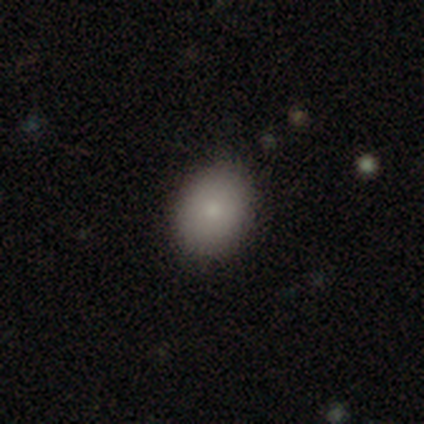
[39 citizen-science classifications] Smooth or featured? smooth (82%)
How rounded? in between (66%)
Merging? none (89%)